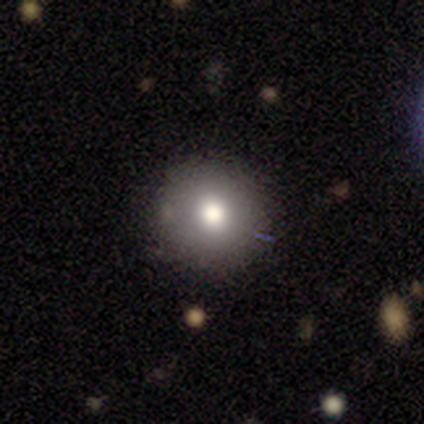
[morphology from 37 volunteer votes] Smooth or featured?
  - smooth: 81% *
  - featured or disk: 11%
  - star or artifact: 8%
How rounded?
  - round: 90% *
  - in between: 7%
  - cigar-shaped: 3%
Merging?
  - none: 85% *
  - major disturbance: 9%
  - merger: 6%
  - minor disturbance: 0%